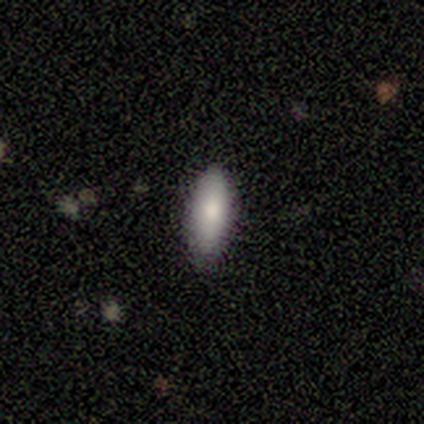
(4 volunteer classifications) Smooth or featured? 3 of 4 (75%) said smooth. How rounded? 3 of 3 (100%) said in between. Merging? 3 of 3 (100%) said none.